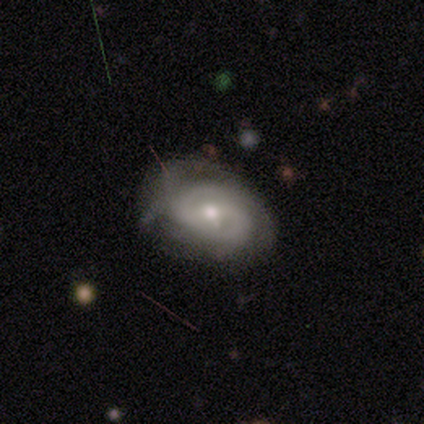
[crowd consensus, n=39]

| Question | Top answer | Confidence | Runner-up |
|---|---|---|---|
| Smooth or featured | featured or disk | 77% | smooth (13%) |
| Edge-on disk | no | 97% | yes (3%) |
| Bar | weak | 48% | no (38%) |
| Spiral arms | yes | 90% | no (10%) |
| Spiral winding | tight | 54% | medium (38%) |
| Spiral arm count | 2 | 65% | can't tell (23%) |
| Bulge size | moderate | 76% | small (24%) |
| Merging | none | 60% | minor disturbance (23%) |